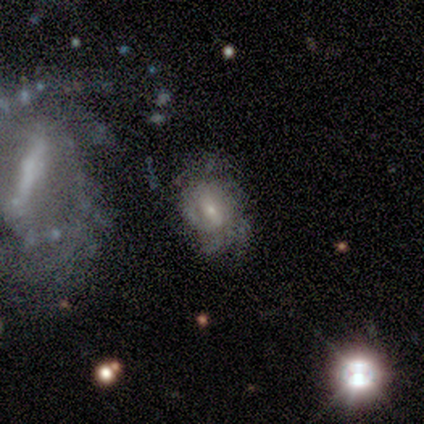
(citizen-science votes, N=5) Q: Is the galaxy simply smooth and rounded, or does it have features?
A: featured or disk — 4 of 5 (80%).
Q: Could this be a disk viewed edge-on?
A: no — 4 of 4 (100%).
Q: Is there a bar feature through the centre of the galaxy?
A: no — 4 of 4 (100%).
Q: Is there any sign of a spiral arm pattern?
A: yes — 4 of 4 (100%).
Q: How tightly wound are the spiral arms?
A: tight — 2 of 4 (50%).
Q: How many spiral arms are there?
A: can't tell — 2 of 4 (50%).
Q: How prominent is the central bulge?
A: small — 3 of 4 (75%).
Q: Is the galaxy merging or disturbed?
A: none — 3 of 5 (60%).